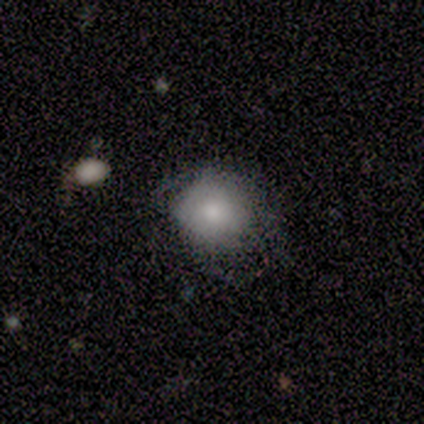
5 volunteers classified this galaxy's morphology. A smooth galaxy with no disk features (60%) that is round (67%).

Vote fractions:
- Smooth or featured? smooth: 60% / featured or disk: 40% / star or artifact: 0%
- How rounded? round: 67% / in between: 33% / cigar-shaped: 0%
- Merging? minor disturbance: 60% / none: 40% / major disturbance: 0% / merger: 0%